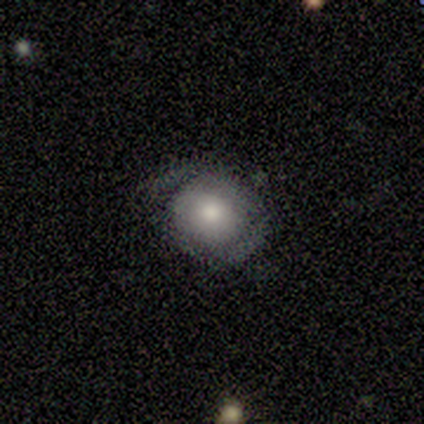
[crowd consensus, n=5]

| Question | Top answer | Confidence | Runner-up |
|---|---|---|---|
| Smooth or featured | smooth | 60% | featured or disk (20%) |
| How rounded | round | 100% | — |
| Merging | minor disturbance | 100% | — |